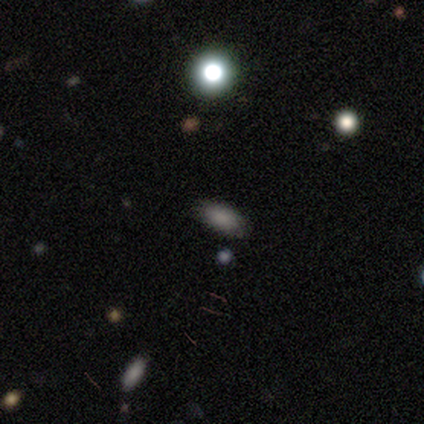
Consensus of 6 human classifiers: Smooth or featured: smooth — 83% (star or artifact — 17%)
How rounded: in between — 100%
Merging: none — 80% (minor disturbance — 20%)